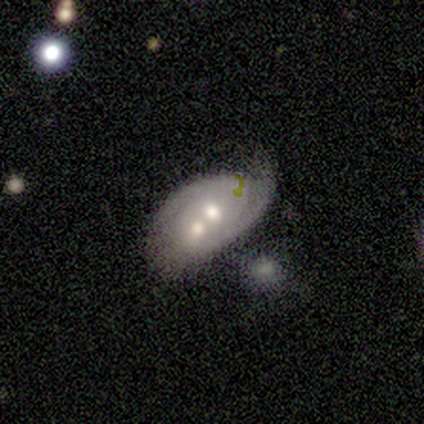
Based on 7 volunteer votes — Smooth or featured? 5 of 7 (71%) said featured or disk. Edge-on disk? 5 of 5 (100%) said no. Bar? 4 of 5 (80%) said no. Spiral arms? 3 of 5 (60%) said no. Bulge size? 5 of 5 (100%) said moderate. Merging? 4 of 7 (57%) said merger.